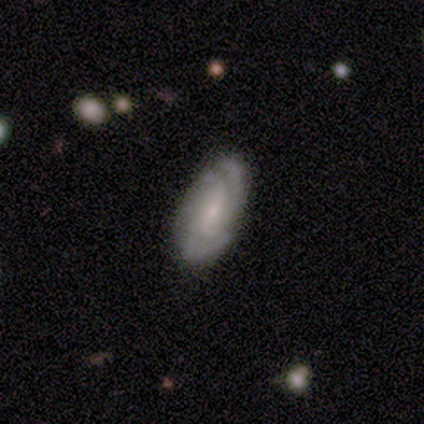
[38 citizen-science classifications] Smooth or featured? 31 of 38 (82%) said featured or disk. Edge-on disk? 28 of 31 (90%) said no. Bar? 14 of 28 (50%) said weak. Spiral arms? 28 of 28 (100%) said yes. Spiral winding? 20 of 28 (71%) said tight. Spiral arm count? 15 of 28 (54%) said 2. Bulge size? 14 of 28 (50%) said small. Merging? 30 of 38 (79%) said none.